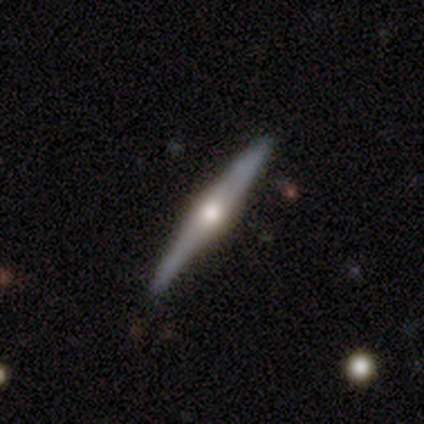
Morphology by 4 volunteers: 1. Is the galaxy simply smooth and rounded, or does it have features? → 75% featured or disk, 25% smooth, 0% star or artifact.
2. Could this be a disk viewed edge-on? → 100% yes, 0% no.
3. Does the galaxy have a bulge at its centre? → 100% rounded, 0% boxy, 0% none.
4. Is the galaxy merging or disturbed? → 100% none, 0% minor disturbance, 0% major disturbance, 0% merger.